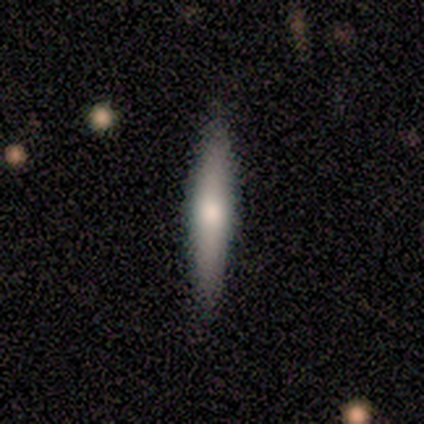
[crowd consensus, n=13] Smooth or featured? 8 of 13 (62%) said featured or disk. Edge-on disk? 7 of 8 (88%) said yes. Edge-on bulge? 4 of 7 (57%) said rounded. Merging? 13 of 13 (100%) said none.